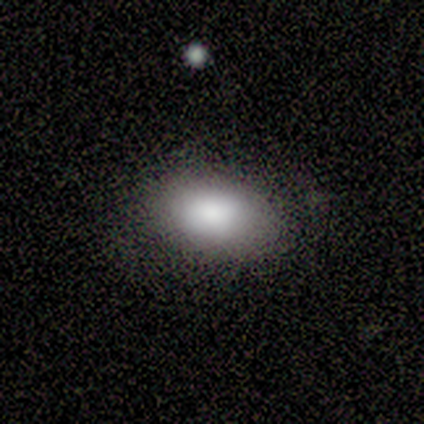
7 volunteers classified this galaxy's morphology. Smooth or featured? smooth (100%)
How rounded? in between (71%)
Merging? none (71%)